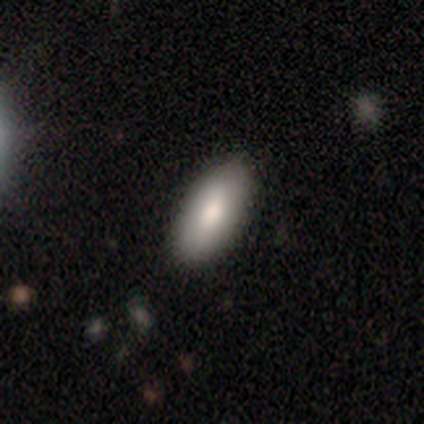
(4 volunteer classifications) Volunteers were most divided on "smooth or featured" (2-way tie): smooth: 50%, featured or disk: 50%, star or artifact: 0%. More confident: how rounded — in between (100%); merging — none (100%).